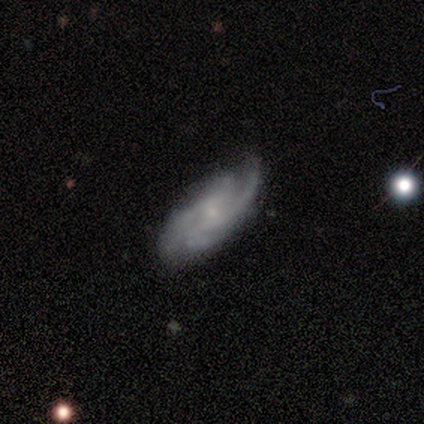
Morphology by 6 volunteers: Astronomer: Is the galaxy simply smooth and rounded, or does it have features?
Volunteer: featured or disk — 100%.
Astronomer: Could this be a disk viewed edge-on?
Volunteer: no — 83%.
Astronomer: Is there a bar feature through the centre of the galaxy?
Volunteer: no — 80%.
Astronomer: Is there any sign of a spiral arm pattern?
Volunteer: yes — 100%.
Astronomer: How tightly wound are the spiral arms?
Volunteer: medium — 40%, tied with loose at 40%.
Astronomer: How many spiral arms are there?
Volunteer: can't tell — 40% (runner-up: 2, 20%).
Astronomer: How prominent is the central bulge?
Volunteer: small — 80%.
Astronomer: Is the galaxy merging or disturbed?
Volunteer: none — 67%.